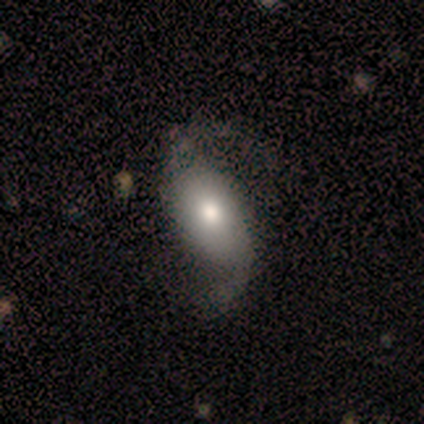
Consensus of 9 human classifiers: Smooth or featured? featured or disk (67%)
Edge-on disk? no (100%)
Bar? no (50%)
Spiral arms? yes (100%)
Spiral winding? loose (83%)
Spiral arm count? 2 (100%)
Bulge size? moderate (50%, tied with small)
Merging? none (44%, tied with major disturbance)